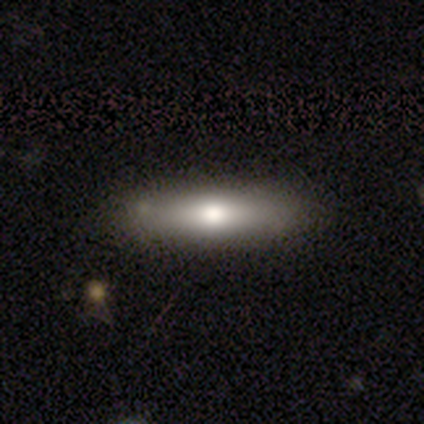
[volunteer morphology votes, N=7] Smooth or featured? 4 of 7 (57%) said featured or disk. Edge-on disk? 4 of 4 (100%) said yes. Edge-on bulge? 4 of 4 (100%) said rounded. Merging? 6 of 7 (86%) said none.